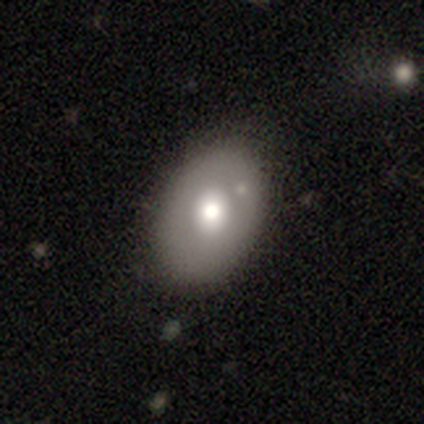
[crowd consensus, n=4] Morphology: type=smooth (75%); roundness=in between (67%); merging=none (100%).